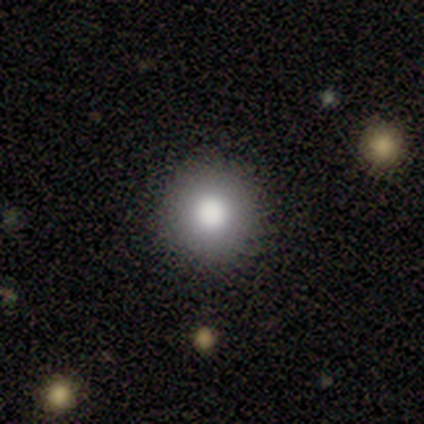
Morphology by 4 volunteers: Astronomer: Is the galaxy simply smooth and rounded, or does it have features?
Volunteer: smooth — 75%.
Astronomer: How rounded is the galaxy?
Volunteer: round — 100%.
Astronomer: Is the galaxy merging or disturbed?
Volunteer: none — 50%, tied with minor disturbance at 50%.